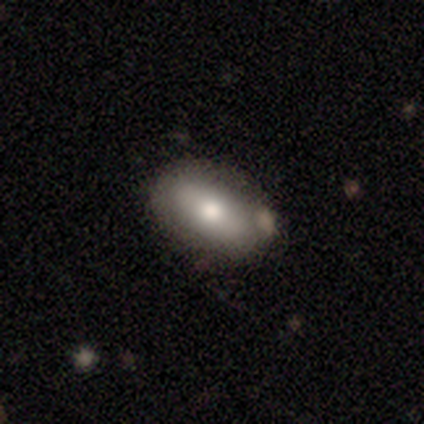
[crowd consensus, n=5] Overall: smooth (80%). How rounded: in between (100%). Merging: none (75%).